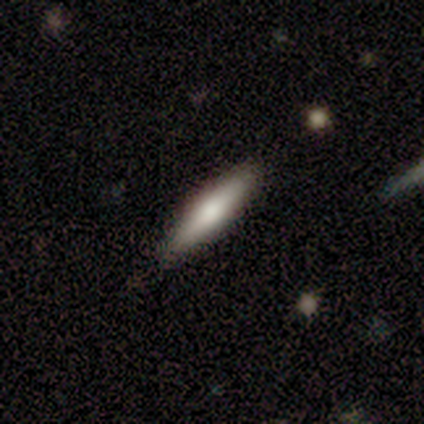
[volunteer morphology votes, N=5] Smooth or featured? 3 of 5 (60%) said featured or disk. Edge-on disk? 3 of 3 (100%) said yes. Edge-on bulge? 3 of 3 (100%) said rounded. Merging? 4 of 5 (80%) said none.